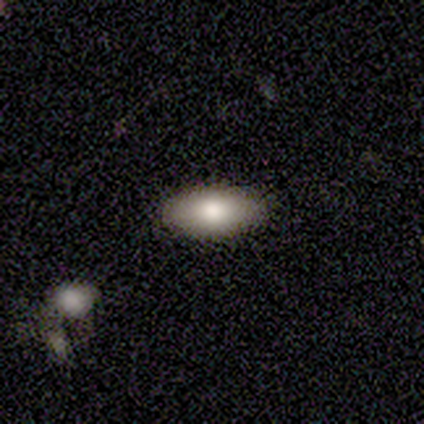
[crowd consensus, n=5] smooth_or_featured: smooth (p=0.80) [alt: star or artifact p=0.20]
how_rounded: in between (p=1.00)
merging: none (p=1.00)